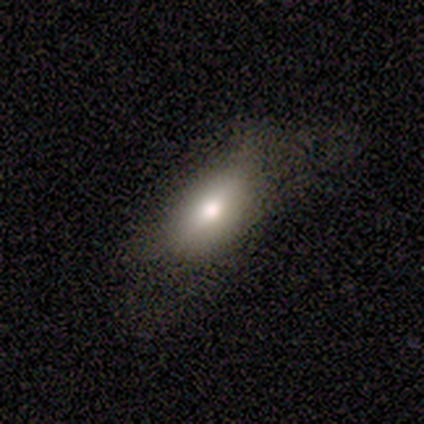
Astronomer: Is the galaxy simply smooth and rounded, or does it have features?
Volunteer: smooth — 100%.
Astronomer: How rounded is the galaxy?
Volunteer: in between — 100%.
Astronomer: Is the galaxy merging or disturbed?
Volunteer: none — 75%.